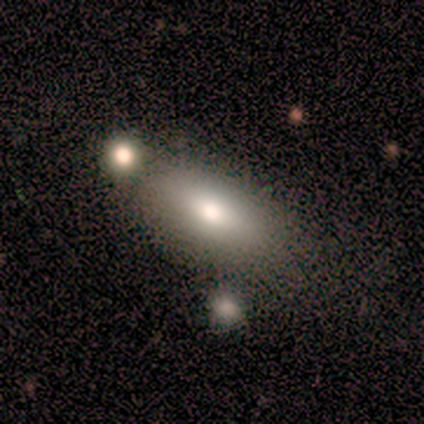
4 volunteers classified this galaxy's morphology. type=smooth (100%); roundness=in between (100%); merging=minor disturbance (100%).